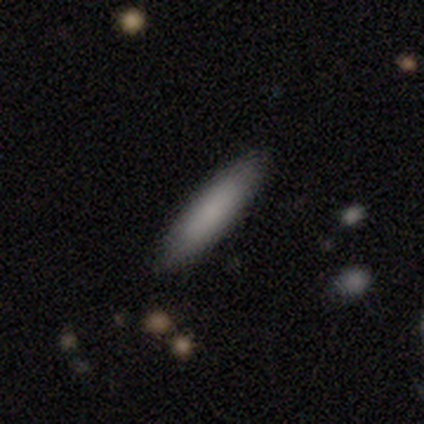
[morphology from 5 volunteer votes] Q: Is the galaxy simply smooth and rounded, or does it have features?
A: smooth — 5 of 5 (100%).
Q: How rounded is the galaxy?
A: cigar-shaped — 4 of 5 (80%).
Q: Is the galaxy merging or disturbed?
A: none — 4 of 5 (80%).